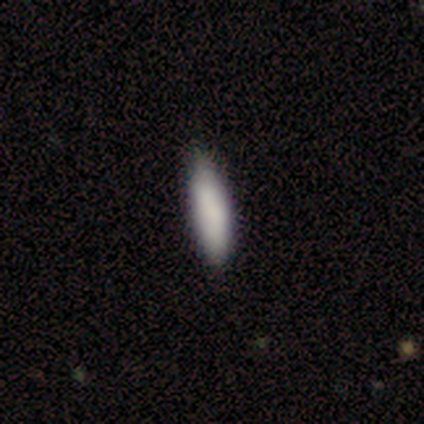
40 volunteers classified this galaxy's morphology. Smooth or featured?
  - smooth: 82% *
  - featured or disk: 15%
  - star or artifact: 2%
How rounded?
  - cigar-shaped: 61% *
  - in between: 39%
  - round: 0%
Merging?
  - none: 56% *
  - minor disturbance: 18%
  - merger: 5%
  - major disturbance: 0%